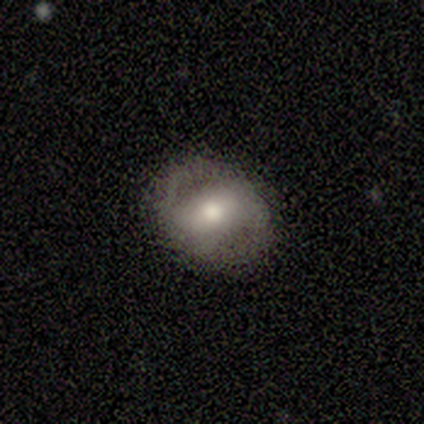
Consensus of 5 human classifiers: Volunteers were most divided on "bulge size" (3-way tie): large: 33%, moderate: 33%, small: 33%, dominant: 0%, none: 0%. More confident: edge-on disk — no (100%); bar — strong (100%); merging — none (100%); spiral arms — no (67%); smooth or featured — featured or disk (60%).